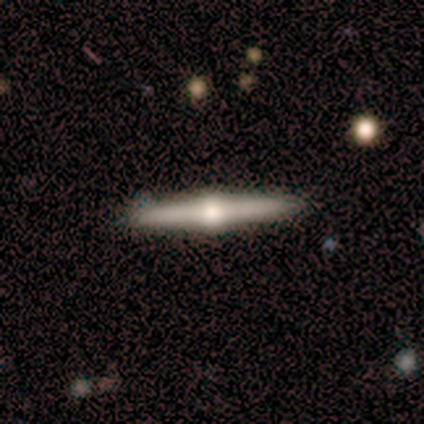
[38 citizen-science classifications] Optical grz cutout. It shows a featured or disk galaxy (92%) viewed edge-on (97%) with a rounded central bulge (100%). Merging: none (59%).